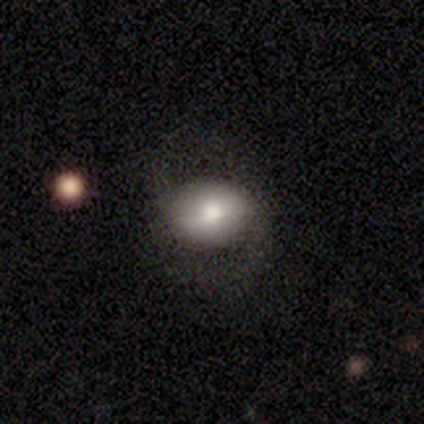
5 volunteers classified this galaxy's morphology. A smooth galaxy with no disk features (80%) that is in between round and cigar-shaped (75%). Merging: none (50%).